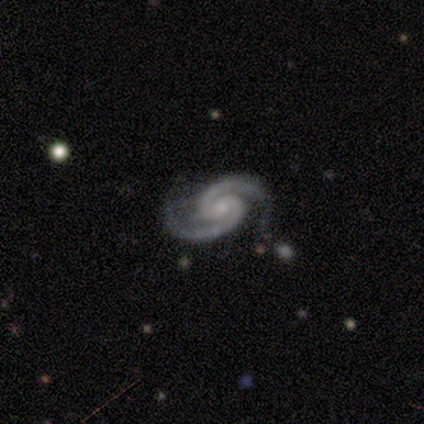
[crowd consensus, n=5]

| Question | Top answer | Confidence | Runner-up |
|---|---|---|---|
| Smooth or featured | featured or disk | 100% | — |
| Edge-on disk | no | 100% | — |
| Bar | no | 60% | weak (40%) |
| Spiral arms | yes | 100% | — |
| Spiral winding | tight | 60% | medium (20%) |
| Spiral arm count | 2 | 100% | — |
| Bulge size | small | 60% | moderate (20%) |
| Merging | none | 80% | minor disturbance (20%) |